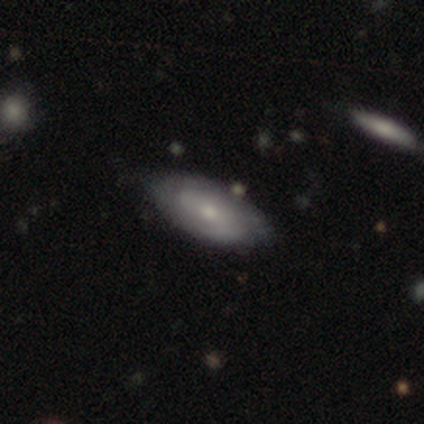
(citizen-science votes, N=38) featured or disk 79%, smooth 16%, star or artifact 5%. Down the decision tree: edge-on disk — no (83%); bar — no (72%); spiral arms — yes (88%); spiral arm count — 2 (45%); spiral winding — tight (55%); bulge size — small (52%); merging — none (89%).